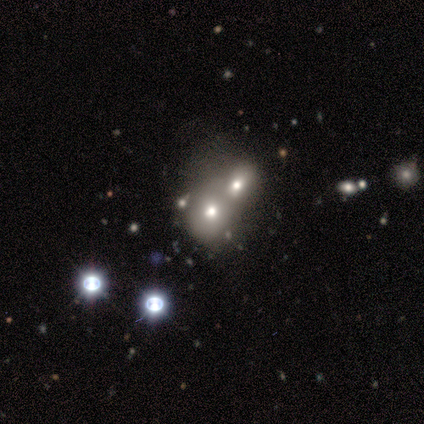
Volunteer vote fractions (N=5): smooth 80%, star or artifact 20%, featured or disk 0%. Down the decision tree: how rounded — round (75%); merging — merger (50%).